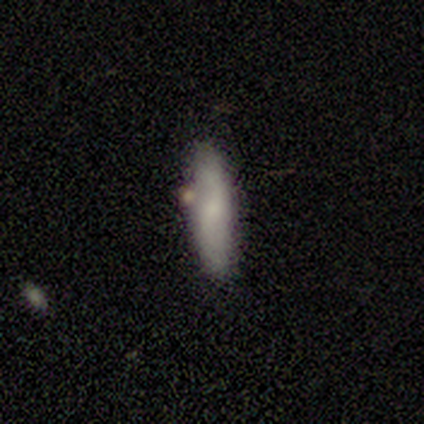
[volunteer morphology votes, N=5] Smooth or featured? 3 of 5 (60%) said featured or disk. Edge-on disk? 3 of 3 (100%) said no. Bar? 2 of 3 (67%) said no. Spiral arms? 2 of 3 (67%) said yes. Spiral winding? 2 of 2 (100%) said loose. Spiral arm count? 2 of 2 (100%) said 2. Bulge size? 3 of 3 (100%) said small. Merging? 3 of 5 (60%) said none.